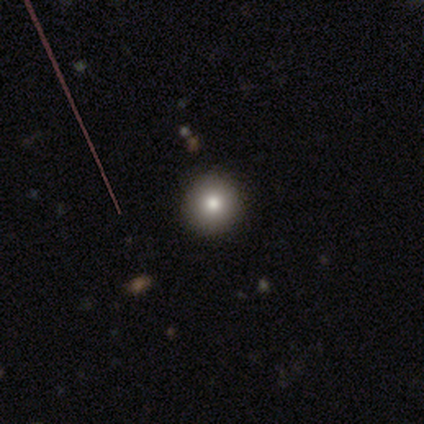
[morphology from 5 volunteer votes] smooth 80%, star or artifact 20%, featured or disk 0%. Down the decision tree: how rounded — round (100%); merging — none (100%).